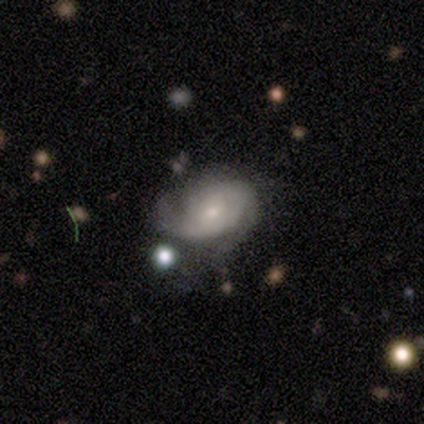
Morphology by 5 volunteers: A featured or disk galaxy (80%) with no bar (100%), tight (50%) spiral arms (100%) and a moderate central bulge (50%, tied with small).

Vote fractions:
- Smooth or featured? featured or disk: 80% / star or artifact: 20% / smooth: 0%
- Edge-on disk? no: 100% / yes: 0%
- Bar? no: 100% / strong: 0% / weak: 0%
- Spiral arms? yes: 100% / no: 0%
- Spiral winding? tight: 50% / medium: 25% / loose: 25%
- Spiral arm count? can't tell: 50% / 1: 25% / 3: 25% / 2: 0% / 4: 0% / more than 4: 0%
- Bulge size? moderate: 50% (tied) / small: 50% (tied) / dominant: 0% / large: 0% / none: 0%
- Merging? major disturbance: 50% / none: 25% / minor disturbance: 25% / merger: 0%